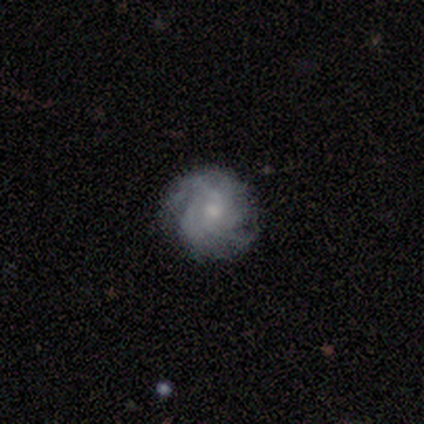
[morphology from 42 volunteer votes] Smooth or featured?
  - featured or disk: 95% *
  - smooth: 5%
  - star or artifact: 0%
Edge-on disk?
  - no: 98% *
  - yes: 2%
Bar?
  - no: 77% *
  - weak: 23%
  - strong: 0%
Spiral arms?
  - yes: 92% *
  - no: 8%
Spiral winding?
  - tight: 64% *
  - medium: 33%
  - loose: 3%
Spiral arm count?
  - can't tell: 42% *
  - 3: 22%
  - 4: 19%
  - more than 4: 8%
  - 2: 6%
  - 1: 3%
Bulge size?
  - small: 54% *
  - moderate: 41%
  - none: 5%
  - dominant: 0%
  - large: 0%
Merging?
  - none: 86% *
  - minor disturbance: 12%
  - major disturbance: 2%
  - merger: 0%